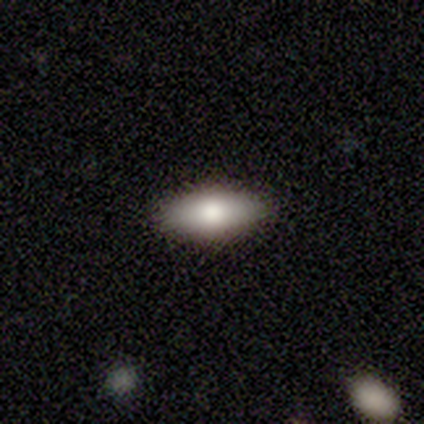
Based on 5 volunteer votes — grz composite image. It shows a smooth galaxy with no disk features (60%) that is in between round and cigar-shaped (100%). Merging: none (100%).